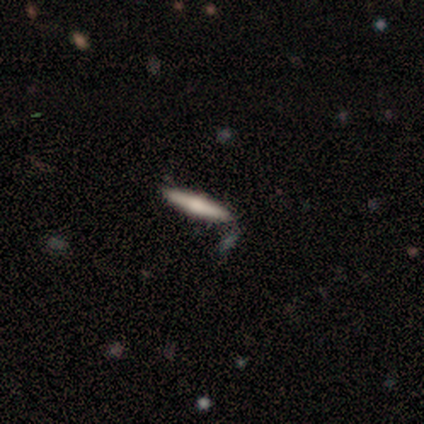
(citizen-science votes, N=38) Q: Smooth or featured?
A: featured or disk (50%); runner-up: smooth (47%)
Q: Edge-on disk?
A: yes (95%); runner-up: no (5%)
Q: Edge-on bulge?
A: rounded (50%); runner-up: boxy (33%)
Q: Merging?
A: none (84%); runner-up: minor disturbance (8%)